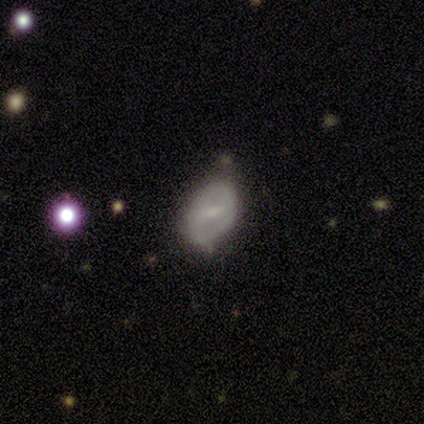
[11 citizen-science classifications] smooth-or-featured: featured or disk: 55% | smooth: 45% | star or artifact: 0%
  disk-edge-on: no: 100% | yes: 0%
    bar: weak: 67% | no: 33% | strong: 0%
    has-spiral-arms: no: 67% | yes: 33%
    bulge-size: small: 100% | dominant: 0% | large: 0% | moderate: 0% | none: 0%
  merging: none: 55% | minor disturbance: 45% | major disturbance: 0% | merger: 0%